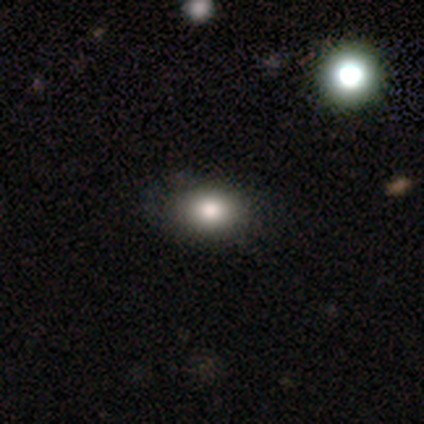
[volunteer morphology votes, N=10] Smooth or featured?
  - smooth: 80% *
  - featured or disk: 20%
  - star or artifact: 0%
How rounded?
  - round: 50% * (tied)
  - in between: 50% * (tied)
  - cigar-shaped: 0%
Merging?
  - none: 80% *
  - minor disturbance: 10%
  - major disturbance: 10%
  - merger: 0%